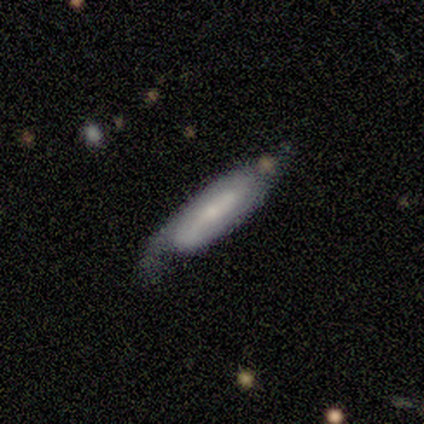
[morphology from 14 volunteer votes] This is likely a featured or disk galaxy (64%). It is likely not viewed edge-on (67%). Bar: possibly weak (50%). Spiral arm pattern: clearly yes (100%). Spiral arm count: possibly 2 (50%, tied with can't tell). Spiral winding: possibly tight (50%). Central bulge: possibly moderate (50%). Merging: likely none (69%).